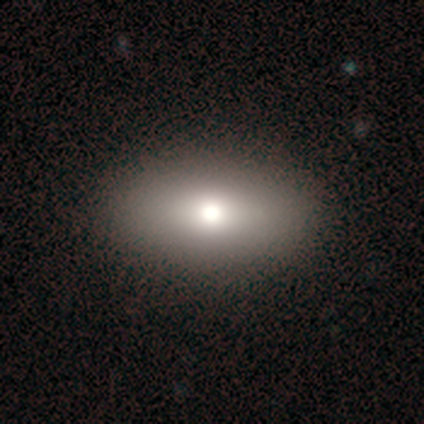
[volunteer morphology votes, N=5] This is likely a smooth galaxy (60%). How rounded: likely in between (67%). Merging: clearly none (100%).